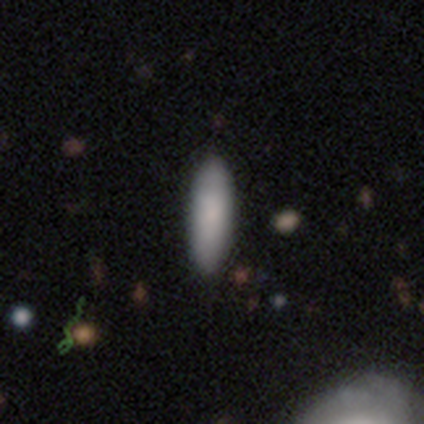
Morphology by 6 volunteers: Smooth or featured? smooth (83%)
How rounded? cigar-shaped (80%)
Merging? none (83%)